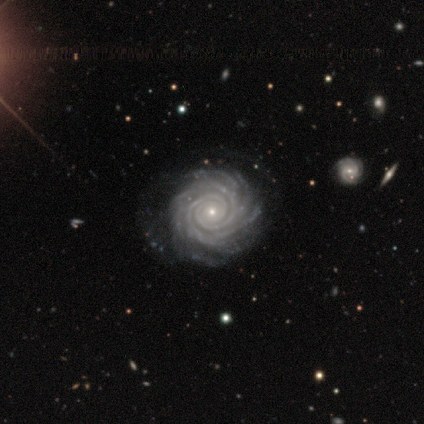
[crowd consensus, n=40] Overall: featured or disk (92%). Edge-on disk: no (100%). Bar: no (84%). Spiral arms: yes (100%). Spiral arm count: more than 4 (62%). Spiral winding: tight (92%). Bulge size: small (86%). Merging: none (68%).